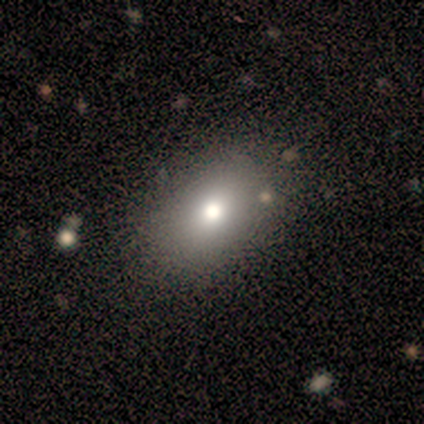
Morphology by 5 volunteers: Overall: smooth (60%; star or artifact 40%). How rounded: in between (67%; round 33%). Merging: none (100%).